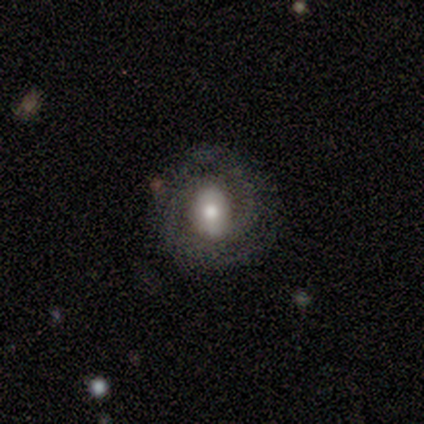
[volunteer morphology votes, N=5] This is clearly a featured or disk galaxy (80%). It is possibly viewed edge-on (50%, tied with no). Edge-on bulge: clearly rounded (100%). Merging: likely none (75%).